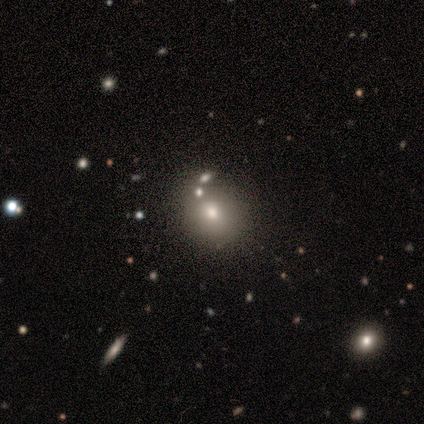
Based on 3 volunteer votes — star or artifact 67%, smooth 33%, featured or disk 0%.